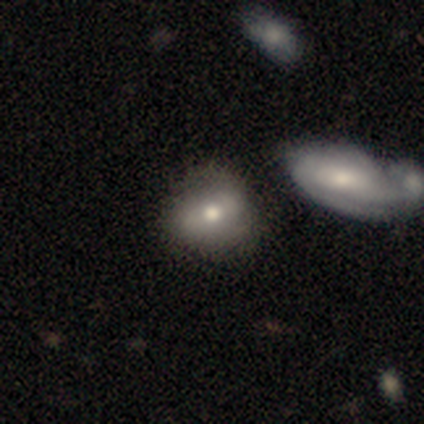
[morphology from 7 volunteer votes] Smooth or featured? 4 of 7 (57%) said smooth. How rounded? 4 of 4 (100%) said round. Merging? 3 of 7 (43%, tied with merger) said none.